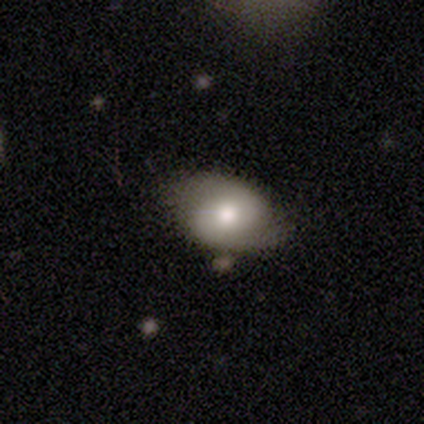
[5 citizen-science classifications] Smooth or featured? smooth (60%)
How rounded? in between (100%)
Merging? none (100%)